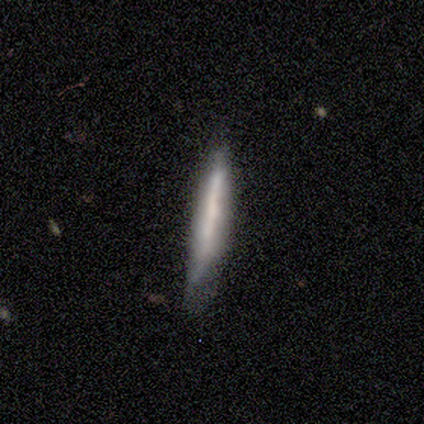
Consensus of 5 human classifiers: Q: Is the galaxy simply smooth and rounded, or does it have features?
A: smooth — 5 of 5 (100%).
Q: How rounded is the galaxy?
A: cigar-shaped — 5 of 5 (100%).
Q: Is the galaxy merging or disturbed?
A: none — 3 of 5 (60%).